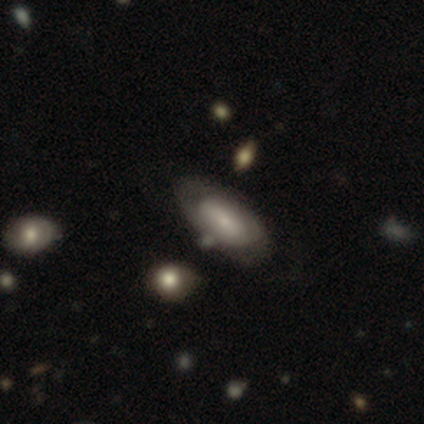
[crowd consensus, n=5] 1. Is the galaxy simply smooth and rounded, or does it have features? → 80% featured or disk, 20% smooth, 0% star or artifact.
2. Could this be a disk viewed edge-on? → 75% no, 25% yes.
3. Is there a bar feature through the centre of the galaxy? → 100% no, 0% strong, 0% weak.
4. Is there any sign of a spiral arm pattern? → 67% no, 33% yes.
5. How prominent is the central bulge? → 67% small, 33% none, 0% dominant, 0% large, 0% moderate.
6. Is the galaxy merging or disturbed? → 80% none, 20% minor disturbance, 0% major disturbance, 0% merger.